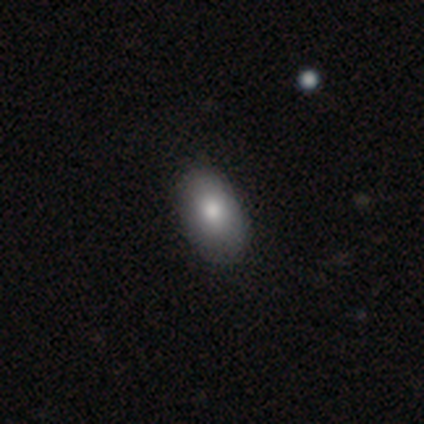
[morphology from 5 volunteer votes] type=smooth (40%, tied with star or artifact); roundness=in between (100%); merging=none (100%).